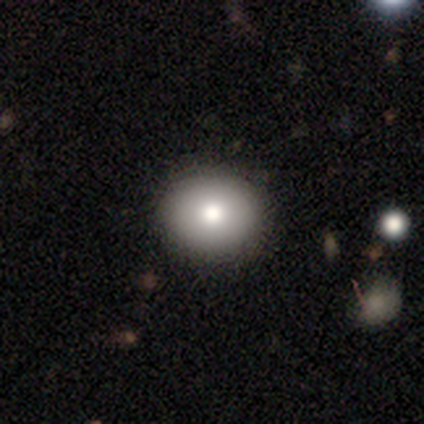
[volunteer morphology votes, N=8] Q: Smooth or featured?
A: smooth (100%)
Q: How rounded?
A: round (75%); runner-up: in between (25%)
Q: Merging?
A: none (100%)